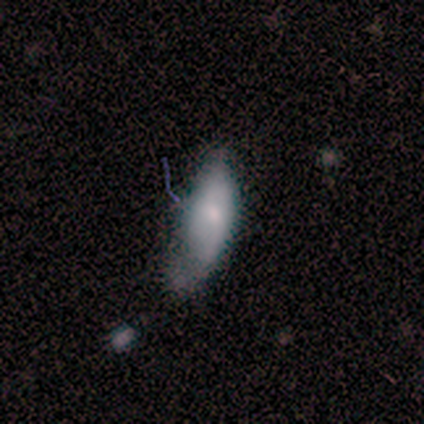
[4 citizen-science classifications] A smooth galaxy with no disk features (50%) that is in between round and cigar-shaped (100%). Merging: minor disturbance (67%).